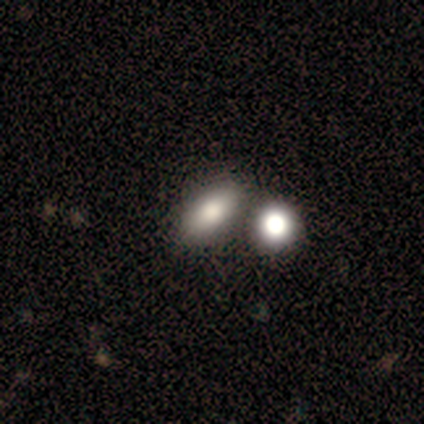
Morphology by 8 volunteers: Smooth or featured?
  - smooth: 75% *
  - featured or disk: 12%
  - star or artifact: 12%
How rounded?
  - in between: 83% *
  - round: 17%
  - cigar-shaped: 0%
Merging?
  - none: 71% *
  - merger: 29%
  - minor disturbance: 0%
  - major disturbance: 0%